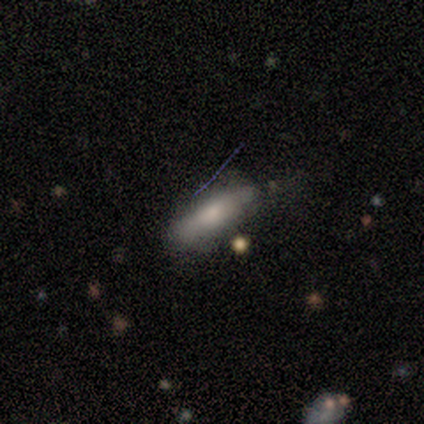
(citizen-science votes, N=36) Smooth or featured? smooth (67%)
How rounded? in between (50%)
Merging? none (57%)